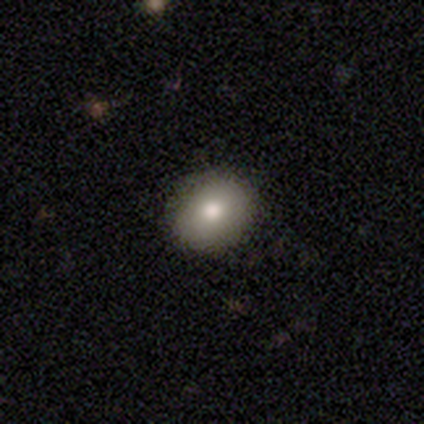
Overall: smooth (100%). How rounded: round (60%; in between 40%). Merging: none (100%).